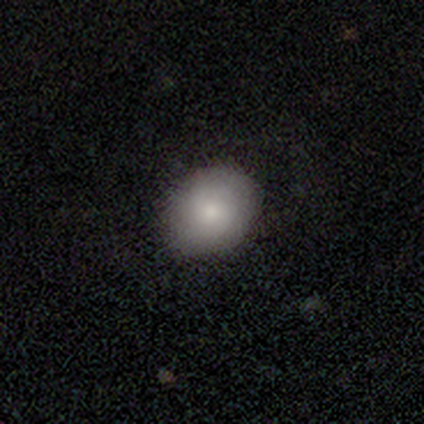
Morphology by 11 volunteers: A smooth galaxy with no disk features (73%) that is in between round and cigar-shaped (62%). Merging: none (88%).